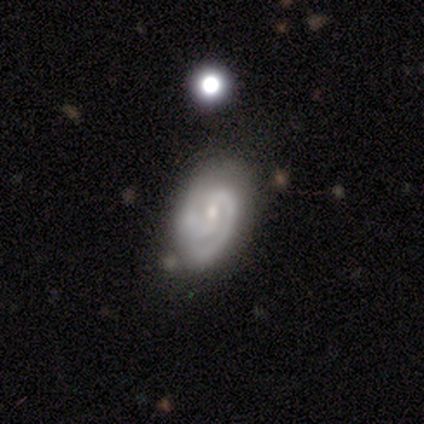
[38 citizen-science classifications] Overall: featured or disk (89%). Edge-on disk: no (97%). Bar: weak (48%; no 36%). Spiral arms: yes (97%). Spiral arm count: 2 (75%). Spiral winding: tight (59%; medium 38%). Bulge size: small (70%). Merging: none (50%; minor disturbance 36%).